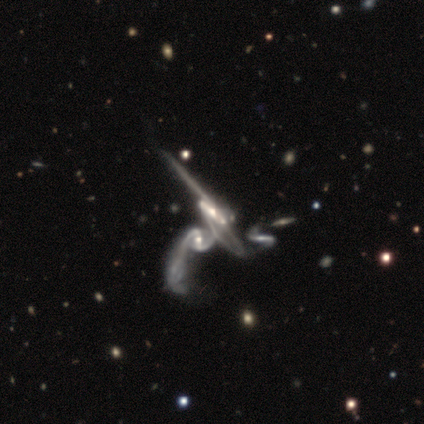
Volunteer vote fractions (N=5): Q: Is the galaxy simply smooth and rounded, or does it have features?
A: featured or disk — 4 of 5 (80%).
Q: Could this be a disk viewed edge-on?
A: no — 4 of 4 (100%).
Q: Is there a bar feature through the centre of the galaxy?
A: weak — 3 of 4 (75%).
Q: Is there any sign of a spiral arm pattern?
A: yes — 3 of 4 (75%).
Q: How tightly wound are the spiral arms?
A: medium — 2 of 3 (67%).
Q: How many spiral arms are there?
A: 2 — 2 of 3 (67%).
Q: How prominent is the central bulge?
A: moderate — 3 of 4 (75%).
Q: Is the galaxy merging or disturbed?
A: merger — 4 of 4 (100%).